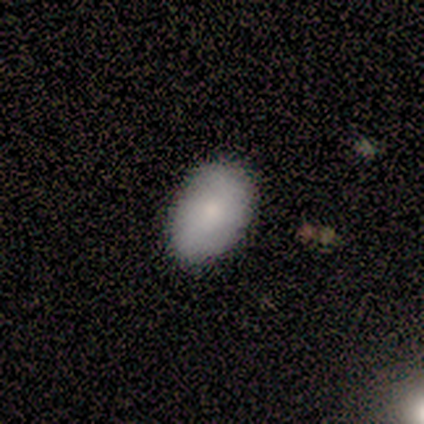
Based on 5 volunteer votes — Smooth or featured? 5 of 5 (100%) said smooth. How rounded? 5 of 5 (100%) said in between. Merging? 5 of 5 (100%) said none.